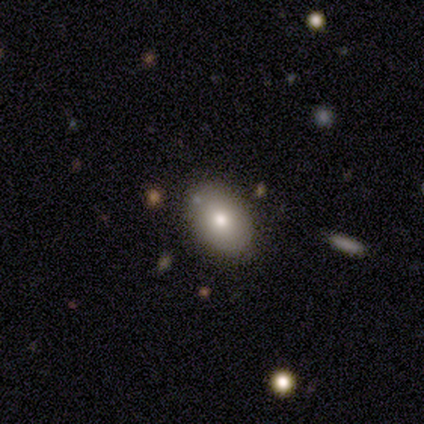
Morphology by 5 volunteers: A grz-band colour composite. It shows a smooth galaxy with no disk features (100%) that is in between round and cigar-shaped (80%). Merging: none (100%).